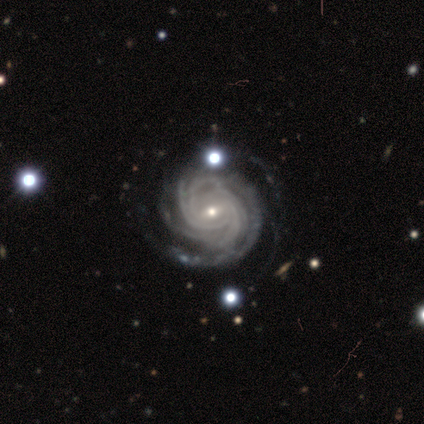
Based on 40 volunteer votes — Smooth or featured? featured or disk (100%)
Edge-on disk? no (98%)
Bar? weak (67%)
Spiral arms? yes (100%)
Spiral winding? tight (87%)
Spiral arm count? 4 (41%)
Bulge size? small (69%)
Merging? none (40%)